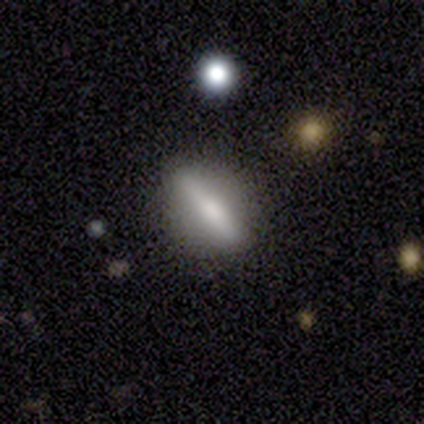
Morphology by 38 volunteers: This appears to be a featured or disk galaxy (55%) viewed edge-on (76%) with a rounded central bulge (75%). Merging: none (76%).